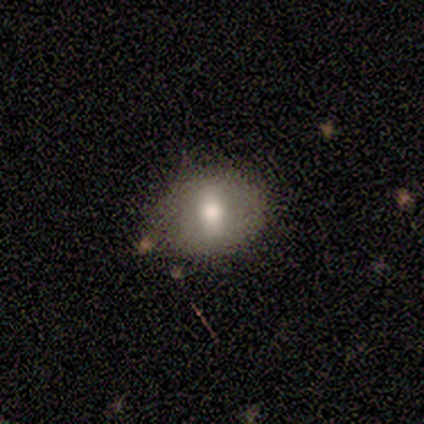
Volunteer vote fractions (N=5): Q: Smooth or featured?
A: smooth (60%); runner-up: featured or disk (20%)
Q: How rounded?
A: round (67%); runner-up: in between (33%)
Q: Merging?
A: none (100%)